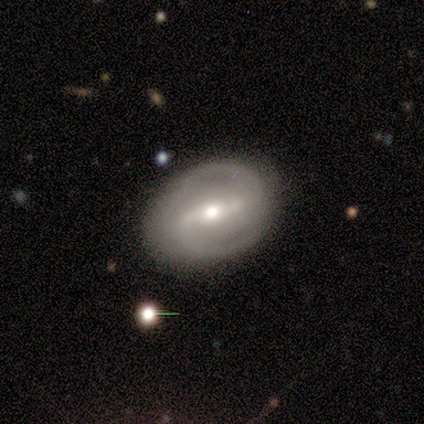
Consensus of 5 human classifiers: This is clearly a featured or disk galaxy (100%). It is clearly not viewed edge-on (100%). Bar: clearly strong (80%). Spiral arm pattern: clearly yes (80%). Spiral arm count: likely 2 (75%). Spiral winding: likely medium (75%). Central bulge: likely moderate (60%). Merging: clearly none (80%).